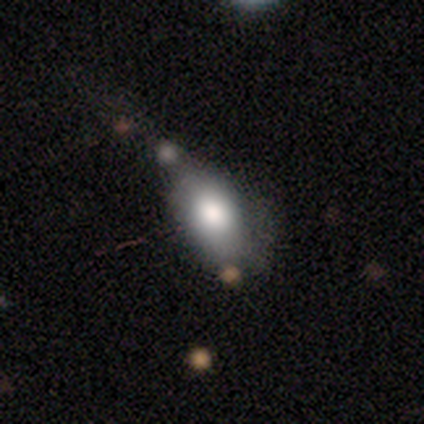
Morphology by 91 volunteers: Overall: smooth (78%). How rounded: in between (85%). Merging: none (41%; minor disturbance 33%).